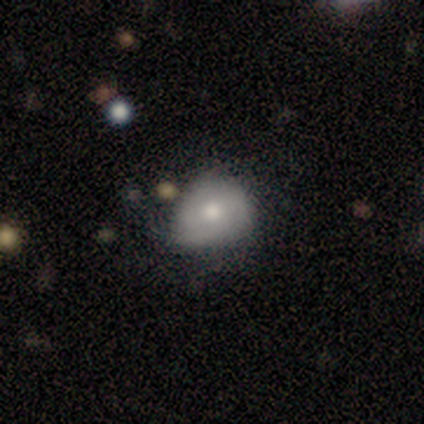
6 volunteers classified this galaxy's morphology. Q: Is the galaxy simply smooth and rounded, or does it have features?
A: smooth — 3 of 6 (50%, tied with featured or disk).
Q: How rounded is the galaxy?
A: round — 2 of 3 (67%).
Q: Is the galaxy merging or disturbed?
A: minor disturbance — 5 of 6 (83%).